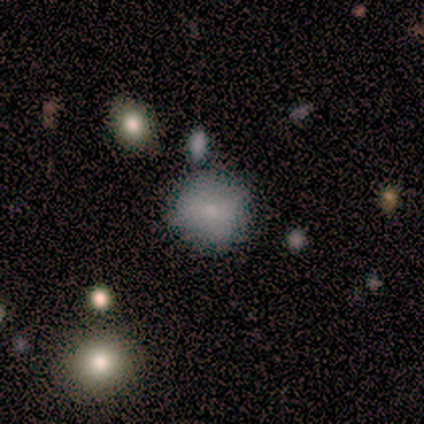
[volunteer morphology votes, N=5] This is clearly a smooth galaxy (80%). How rounded: clearly round (100%). Merging: clearly none (80%).